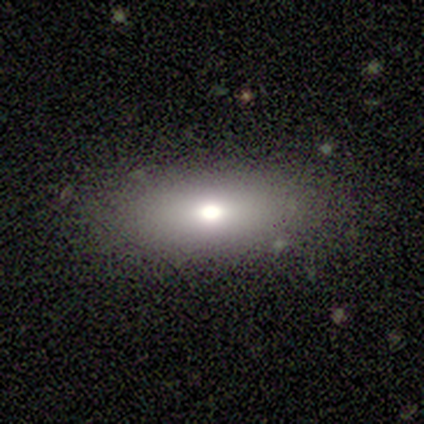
Smooth or featured: smooth — 77% (featured or disk — 15%)
How rounded: in between — 90% (cigar-shaped — 10%)
Merging: none — 83% (major disturbance — 17%)